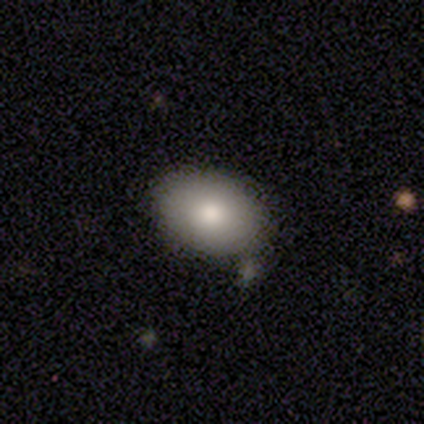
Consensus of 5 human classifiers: Volunteers were most divided on "how rounded": in between: 75%, round: 25%, cigar-shaped: 0%. More confident: merging — none (100%); smooth or featured — smooth (80%).